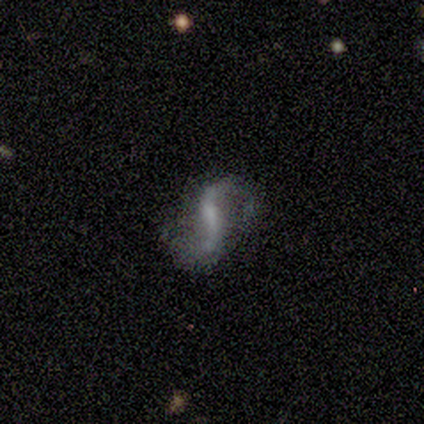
This is clearly a featured or disk galaxy (80%). It is clearly not viewed edge-on (100%). Bar: likely strong (75%). Spiral arm pattern: clearly yes (100%). Spiral arm count: clearly 2 (100%). Spiral winding: possibly medium (50%, tied with loose). Central bulge: possibly none (50%). Merging: possibly none (50%, tied with major disturbance).